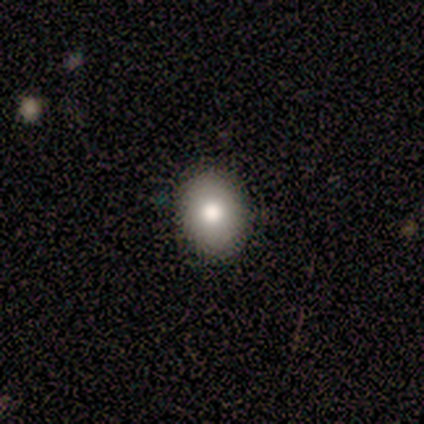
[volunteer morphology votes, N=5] smooth_or_featured: smooth (p=1.00)
how_rounded: in between (p=0.80) [alt: round p=0.20]
merging: none (p=0.80) [alt: minor disturbance p=0.20]